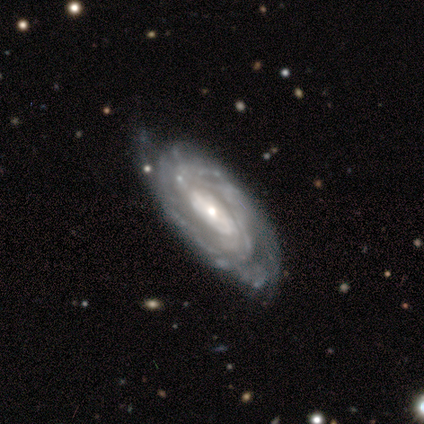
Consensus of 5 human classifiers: This is clearly a featured or disk galaxy (100%). It is clearly not viewed edge-on (100%). Bar: likely strong (60%). Spiral arm pattern: clearly yes (100%). Spiral arm count: likely 3 (60%). Spiral winding: clearly tight (80%). Central bulge: likely small (60%). Merging: clearly none (80%).